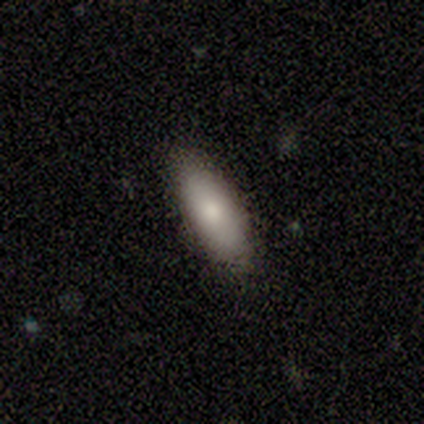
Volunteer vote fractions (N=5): smooth 100%, featured or disk 0%, star or artifact 0%. Down the decision tree: how rounded — in between (100%); merging — none (100%).